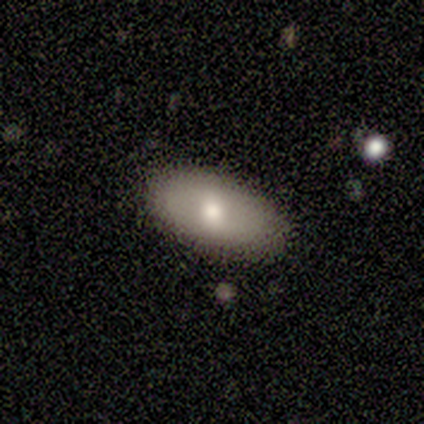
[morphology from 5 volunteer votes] smooth_or_featured: smooth (p=1.00)
how_rounded: in between (p=1.00)
merging: none (p=1.00)